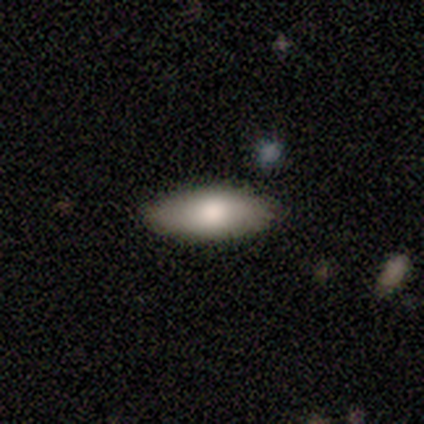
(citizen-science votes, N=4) Smooth or featured? 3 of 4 (75%) said smooth. How rounded? 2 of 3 (67%) said in between. Merging? 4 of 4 (100%) said none.